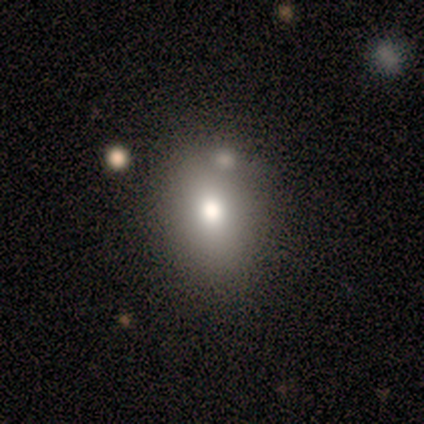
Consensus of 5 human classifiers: This appears to be a smooth galaxy with no disk features (60%) that is in between round and cigar-shaped (67%). Merging: none (100%).